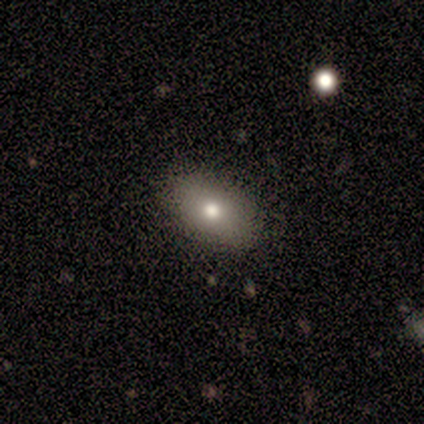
Morphology: type=smooth (100%); roundness=in between (100%); merging=none (100%).